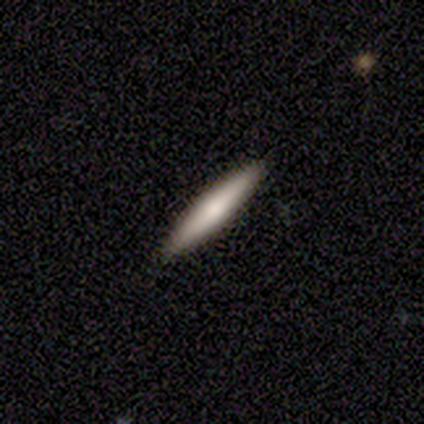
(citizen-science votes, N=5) Morphology: type=featured or disk (60%); edge-on=yes (100%); edge-on bulge=rounded (67%); merging=none (100%).